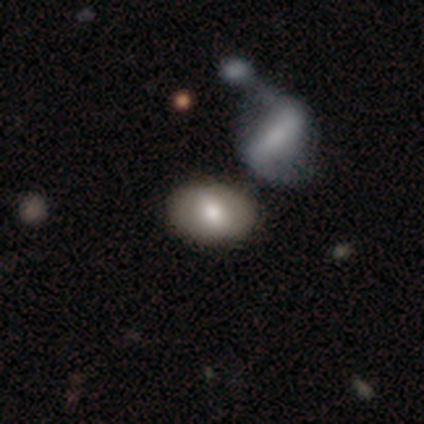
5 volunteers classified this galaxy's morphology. Volunteers were most divided on "smooth or featured": featured or disk: 60%, smooth: 40%, star or artifact: 0%. More confident: edge-on disk — no (100%); spiral arms — no (100%); bar — no (67%); bulge size — moderate (67%); merging — none (60%).